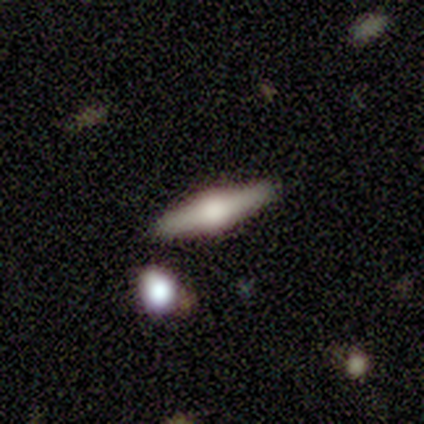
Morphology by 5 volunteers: type=featured or disk (80%); edge-on=yes (100%); edge-on bulge=rounded (75%); merging=none (100%).